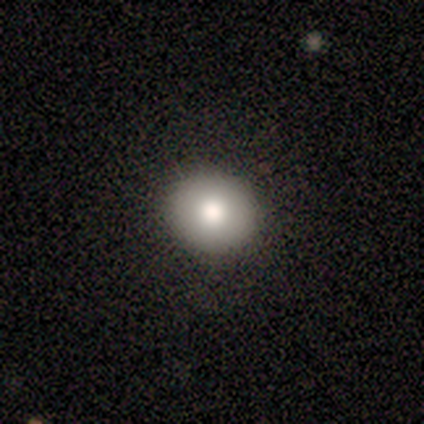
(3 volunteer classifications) Morphology: type=smooth (100%); roundness=round (100%); merging=minor disturbance (67%).